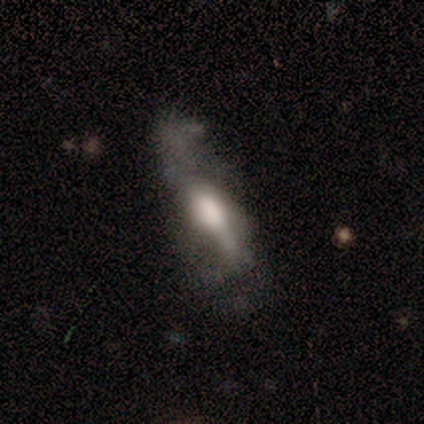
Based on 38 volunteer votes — Smooth or featured? featured or disk (66%)
Edge-on disk? no (60%)
Bar? no (53%)
Spiral arms? yes (60%)
Spiral winding? loose (78%)
Spiral arm count? 2 (67%)
Bulge size? large (40%)
Merging? none (38%)